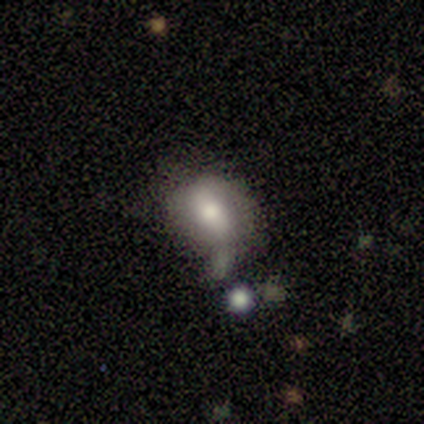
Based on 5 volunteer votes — This is likely a smooth galaxy (60%). How rounded: clearly in between (100%). Merging: likely none (60%).